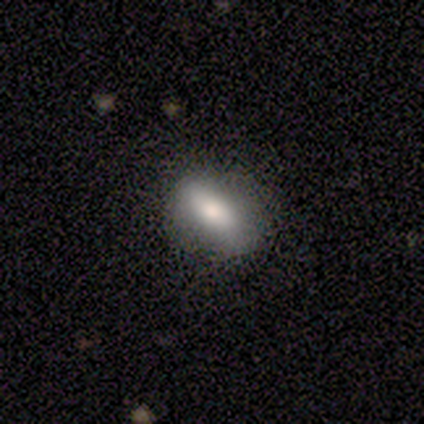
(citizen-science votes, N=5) Overall: smooth (80%). How rounded: in between (75%). Merging: none (80%).